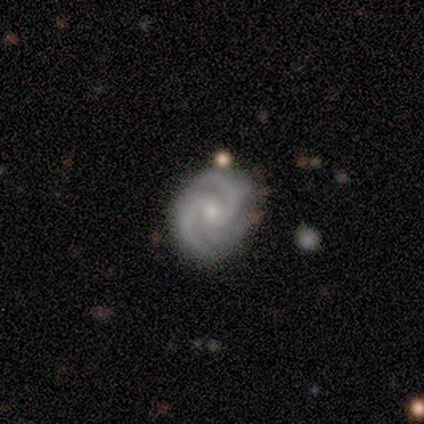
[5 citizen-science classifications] smooth-or-featured: featured or disk: 100% | smooth: 0% | star or artifact: 0%
  disk-edge-on: no: 80% | yes: 20%
    bar: no: 100% | strong: 0% | weak: 0%
    has-spiral-arms: yes: 100% | no: 0%
      spiral-winding: medium: 75% | tight: 25% | loose: 0%
      spiral-arm-count: 2: 50% (tied) | 3: 50% (tied) | 1: 0% | 4: 0% | more than 4: 0% | can't tell: 0%
    bulge-size: moderate: 50% (tied) | small: 50% (tied) | dominant: 0% | large: 0% | none: 0%
  merging: none: 60% | minor disturbance: 40% | major disturbance: 0% | merger: 0%